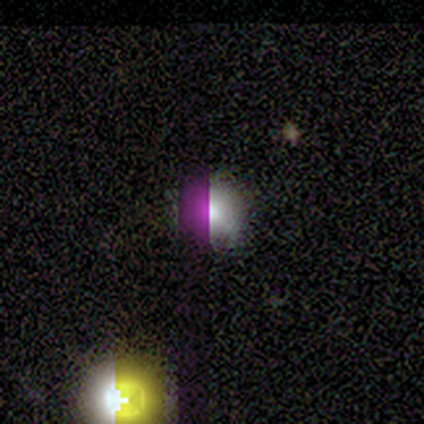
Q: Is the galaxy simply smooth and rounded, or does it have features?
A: smooth — 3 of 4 (75%).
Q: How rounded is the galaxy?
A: round — 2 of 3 (67%).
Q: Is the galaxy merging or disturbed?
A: none — 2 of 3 (67%).